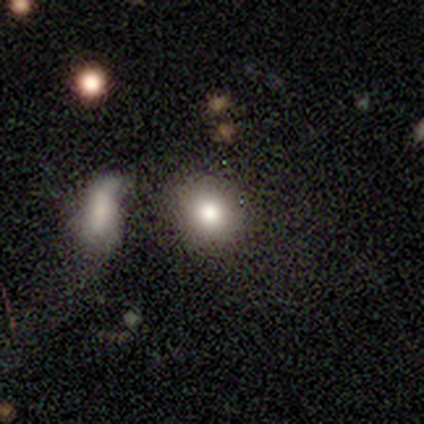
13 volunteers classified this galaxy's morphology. Volunteers were most divided on "how rounded": round: 64%, in between: 36%, cigar-shaped: 0%. More confident: smooth or featured — smooth (85%); merging — none (75%).